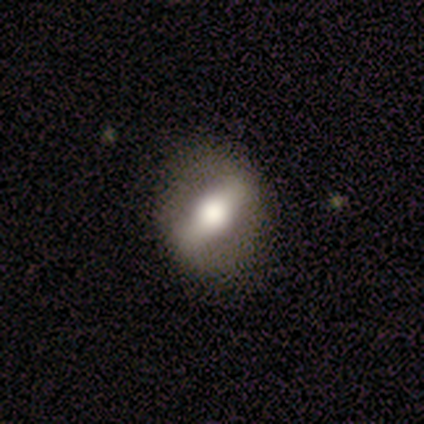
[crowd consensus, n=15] This is likely a featured or disk galaxy (73%). It is clearly not viewed edge-on (91%). Bar: likely strong (70%). Spiral arm pattern: clearly no (80%). Central bulge: likely moderate (70%). Merging: clearly none (87%).